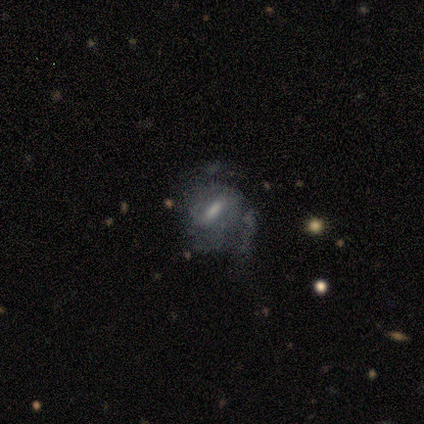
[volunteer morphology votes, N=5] smooth 60%, featured or disk 40%, star or artifact 0%. Down the decision tree: how rounded — in between (100%); merging — none (60%).